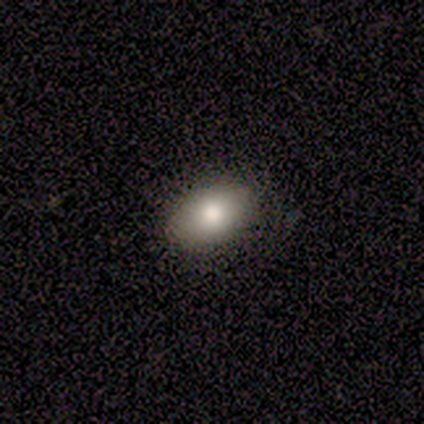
This is clearly a smooth galaxy (80%). How rounded: clearly in between (100%). Merging: likely none (75%).